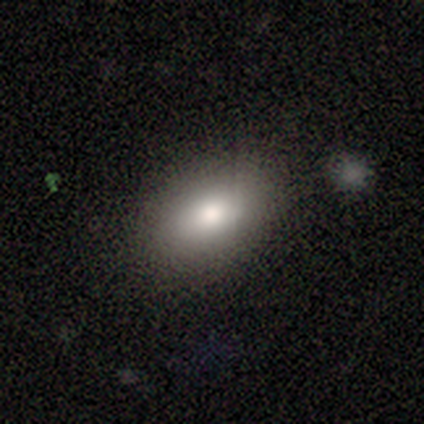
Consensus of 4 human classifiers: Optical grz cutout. It shows a smooth galaxy with no disk features (75%) that is in between round and cigar-shaped (100%). Merging: none (67%).